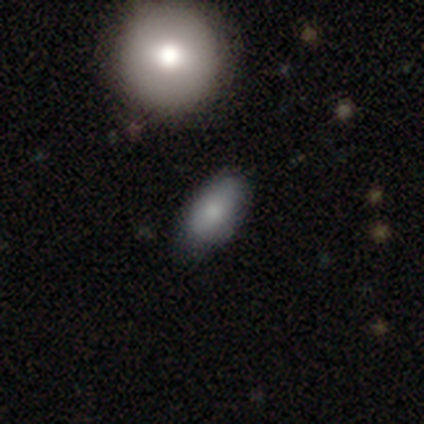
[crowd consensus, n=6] Volunteers were most divided on "smooth or featured": smooth: 50%, featured or disk: 33%, star or artifact: 17%. More confident: how rounded — in between (67%); merging — minor disturbance (60%).